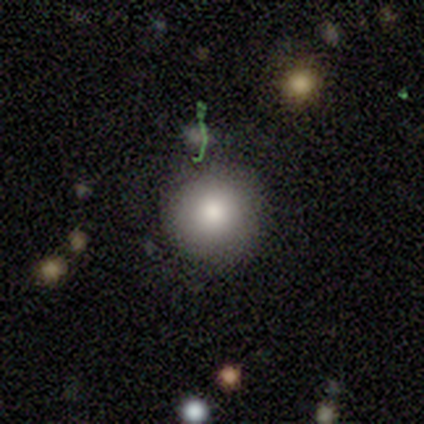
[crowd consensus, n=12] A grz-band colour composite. It shows a smooth galaxy with no disk features (75%) that is round (100%). Merging: none (70%).